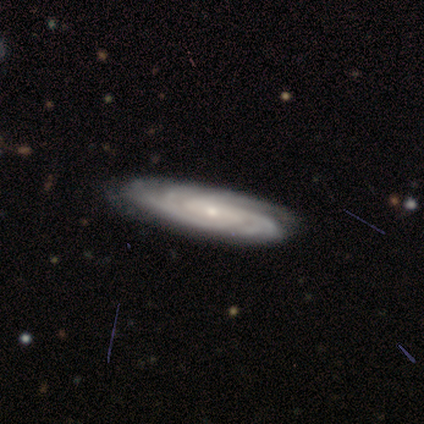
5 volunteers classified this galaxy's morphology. type=featured or disk (80%); edge-on=no (100%); bar=weak (50%, tied with no); spiral arms=yes (100%); winding=tight (75%); arm count=can't tell (50%); bulge=small (100%); merging=none (80%).